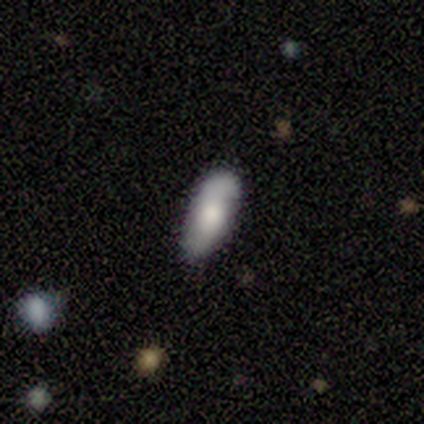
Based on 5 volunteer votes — Q: Smooth or featured?
A: smooth (100%)
Q: How rounded?
A: in between (60%); runner-up: cigar-shaped (40%)
Q: Merging?
A: none (80%); runner-up: minor disturbance (20%)